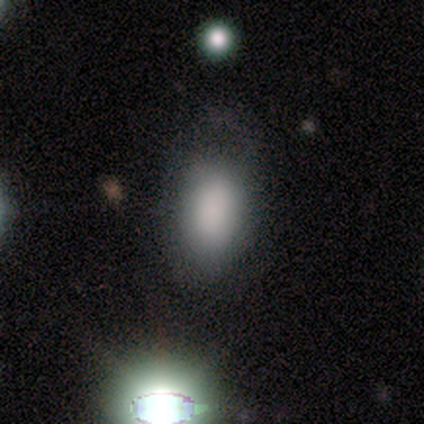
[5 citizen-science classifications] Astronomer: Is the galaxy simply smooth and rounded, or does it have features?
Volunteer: smooth — 100%.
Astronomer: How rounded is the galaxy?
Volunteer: in between — 100%.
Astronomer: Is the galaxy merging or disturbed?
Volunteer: none — 80%.